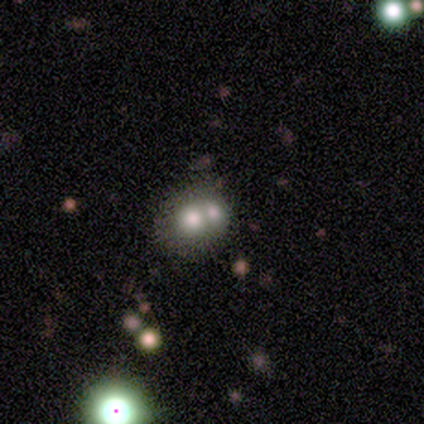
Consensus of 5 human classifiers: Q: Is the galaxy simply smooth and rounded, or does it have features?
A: smooth — 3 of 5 (60%).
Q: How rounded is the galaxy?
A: round — 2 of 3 (67%).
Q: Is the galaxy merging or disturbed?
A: merger — 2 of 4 (50%).